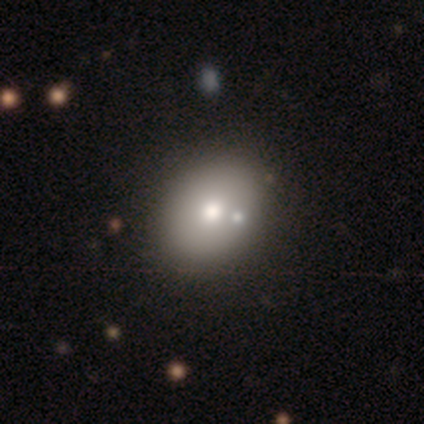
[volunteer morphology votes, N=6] smooth 83%, featured or disk 17%, star or artifact 0%. Down the decision tree: how rounded — in between (80%); merging — none (83%).